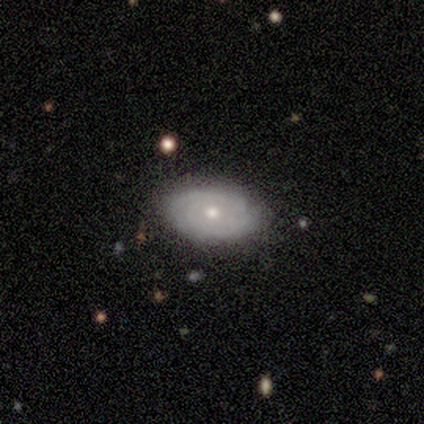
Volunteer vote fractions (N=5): smooth-or-featured: featured or disk: 100% | smooth: 0% | star or artifact: 0%
  disk-edge-on: no: 100% | yes: 0%
    bar: no: 100% | strong: 0% | weak: 0%
    has-spiral-arms: yes: 100% | no: 0%
      spiral-winding: tight: 80% | loose: 20% | medium: 0%
      spiral-arm-count: can't tell: 80% | 2: 20% | 1: 0% | 3: 0% | 4: 0% | more than 4: 0%
    bulge-size: moderate: 60% | small: 40% | dominant: 0% | large: 0% | none: 0%
  merging: none: 100% | minor disturbance: 0% | major disturbance: 0% | merger: 0%